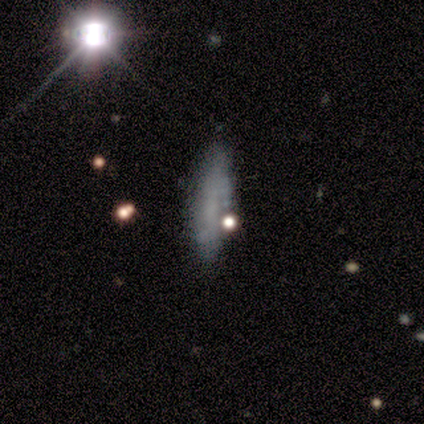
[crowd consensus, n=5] Smooth or featured: smooth — 60% (featured or disk — 20%)
How rounded: in between — 100%
Merging: none — 75% (minor disturbance — 25%)